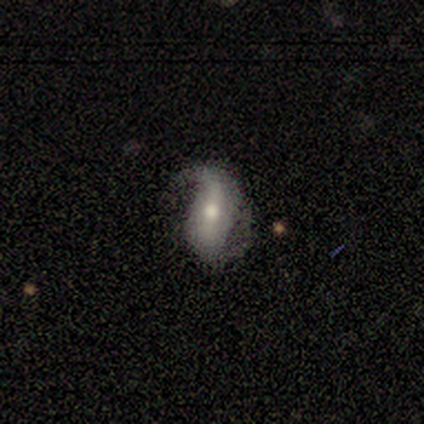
featured or disk 80%, star or artifact 20%, smooth 0%. Down the decision tree: edge-on disk — no (75%); bar — weak (100%); spiral arms — yes (67%); spiral arm count — 1 (50%, tied with can't tell); spiral winding — medium (50%, tied with loose); bulge size — moderate (100%); merging — minor disturbance (50%, tied with major disturbance).